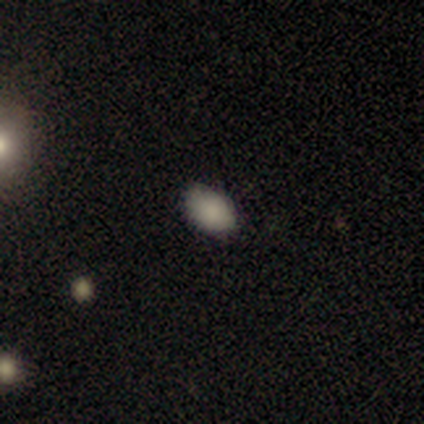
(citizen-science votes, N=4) Morphology: type=smooth (75%); roundness=in between (100%); merging=none (100%).